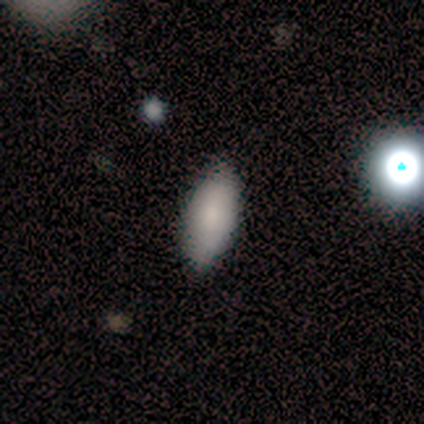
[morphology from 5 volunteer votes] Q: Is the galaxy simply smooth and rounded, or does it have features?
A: smooth — 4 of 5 (80%).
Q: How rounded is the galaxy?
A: in between — 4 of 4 (100%).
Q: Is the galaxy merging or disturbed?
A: none — 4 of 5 (80%).